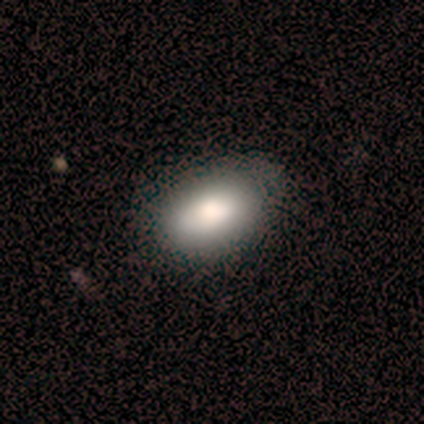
Volunteers were most divided on "smooth or featured": smooth: 60%, star or artifact: 40%, featured or disk: 0%. More confident: how rounded — in between (100%); merging — none (100%).